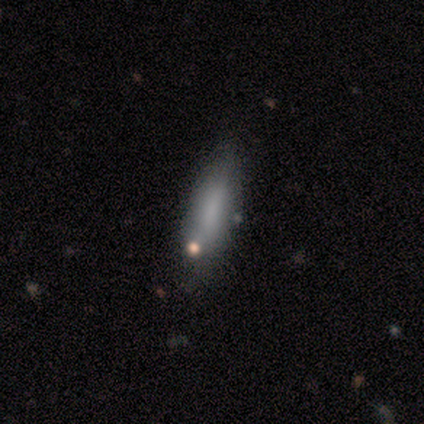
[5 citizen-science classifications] This appears to be a smooth galaxy with no disk features (40%, tied with star or artifact) that is in between round and cigar-shaped (50%, tied with cigar-shaped). Merging: minor disturbance (67%).